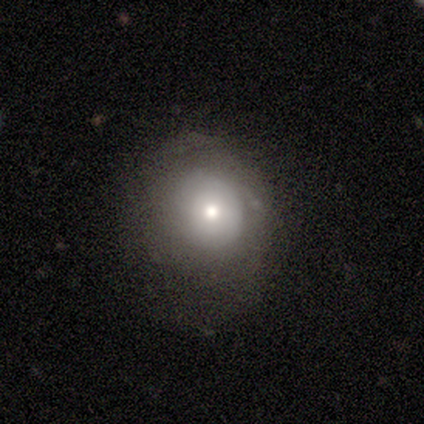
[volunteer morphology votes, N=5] Smooth or featured?
  - smooth: 60% *
  - star or artifact: 40%
  - featured or disk: 0%
How rounded?
  - round: 67% *
  - in between: 33%
  - cigar-shaped: 0%
Merging?
  - major disturbance: 67% *
  - none: 33%
  - minor disturbance: 0%
  - merger: 0%